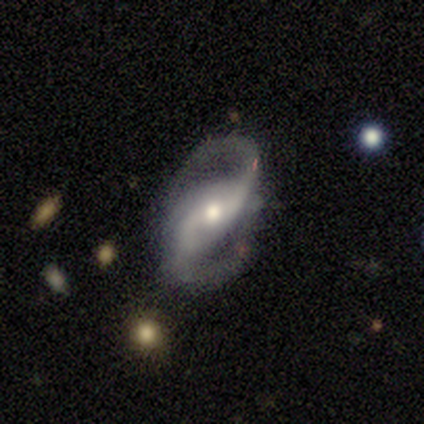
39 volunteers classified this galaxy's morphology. Smooth or featured?
  - featured or disk: 85% *
  - star or artifact: 13%
  - smooth: 3%
Edge-on disk?
  - no: 88% *
  - yes: 12%
Bar?
  - weak: 34% * (tied)
  - no: 34% * (tied)
  - strong: 31%
Spiral arms?
  - yes: 93% *
  - no: 7%
Spiral winding?
  - medium: 48% *
  - loose: 44%
  - tight: 7%
Spiral arm count?
  - 2: 100% *
  - 1: 0%
  - 3: 0%
  - 4: 0%
  - more than 4: 0%
  - can't tell: 0%
Bulge size?
  - moderate: 66% *
  - small: 31%
  - large: 3%
  - dominant: 0%
  - none: 0%
Merging?
  - none: 74% *
  - major disturbance: 15%
  - minor disturbance: 9%
  - merger: 3%